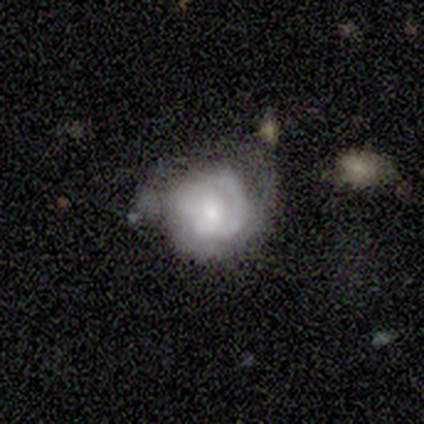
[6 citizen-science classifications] A featured or disk galaxy (83%) with no bar (60%), 2 (80%) tight (60%) spiral arms (100%) and a small central bulge (100%). Merging: none (40%, tied with minor disturbance).